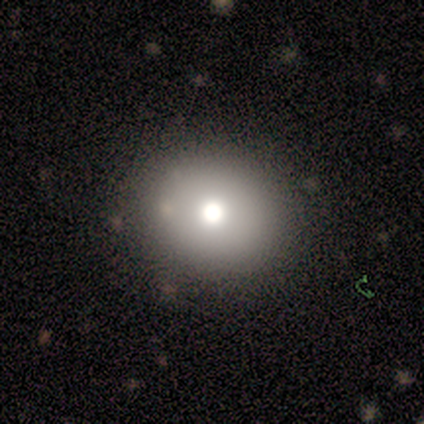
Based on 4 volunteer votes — smooth_or_featured: smooth (p=0.75) [alt: featured or disk p=0.25]
how_rounded: round (p=0.67) [alt: in between p=0.33]
merging: none (p=1.00)